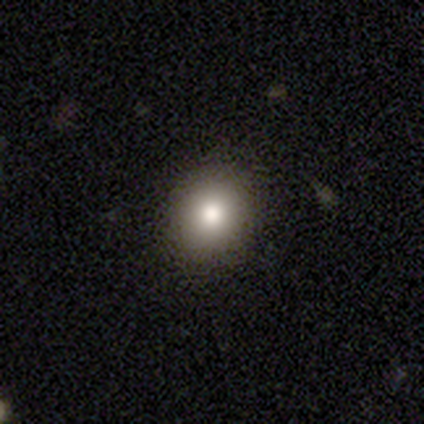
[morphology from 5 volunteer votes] Smooth or featured: smooth — 80% (star or artifact — 20%)
How rounded: round — 100%
Merging: none — 100%